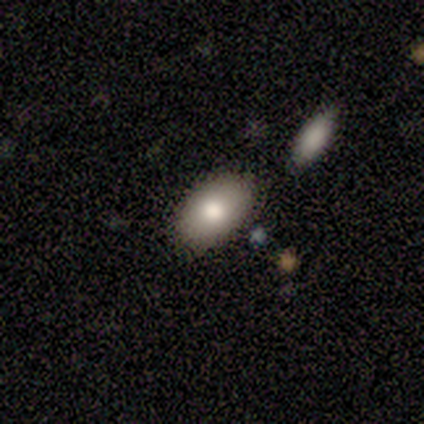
Smooth or featured? 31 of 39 (79%) said smooth. How rounded? 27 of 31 (87%) said in between. Merging? 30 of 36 (83%) said none.